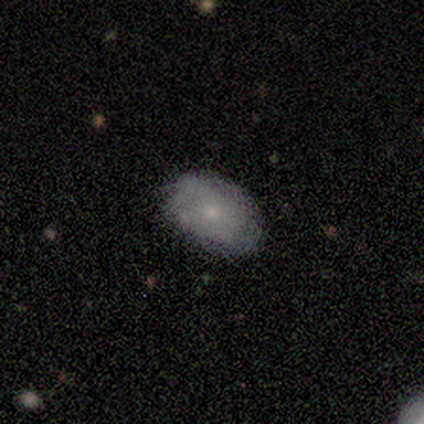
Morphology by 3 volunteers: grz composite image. It shows a featured or disk galaxy (100%) with no bar (67%), no spiral arms (67%) and a small central bulge (67%). Merging: none (67%).